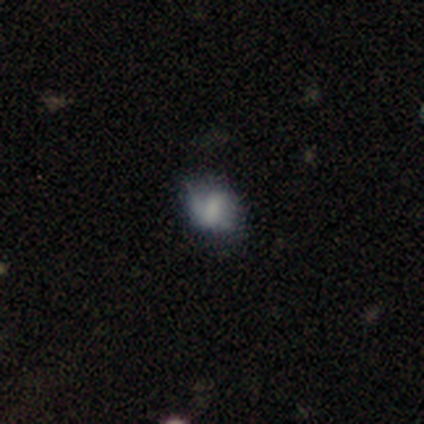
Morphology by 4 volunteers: Smooth or featured?
  - smooth: 75% *
  - featured or disk: 25%
  - star or artifact: 0%
How rounded?
  - round: 100% *
  - in between: 0%
  - cigar-shaped: 0%
Merging?
  - minor disturbance: 75% *
  - major disturbance: 25%
  - none: 0%
  - merger: 0%